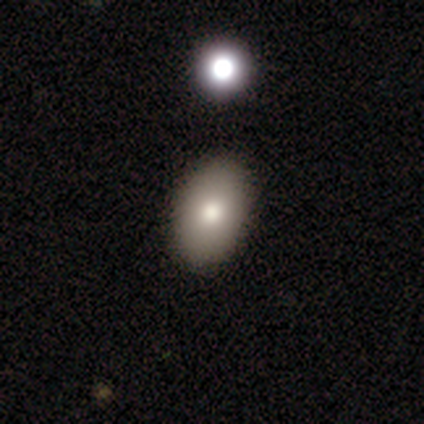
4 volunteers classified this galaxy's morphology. Smooth or featured: smooth — 75% (star or artifact — 25%)
How rounded: in between — 100%
Merging: none — 33% (tied with major disturbance — 33%; merger — 33%)